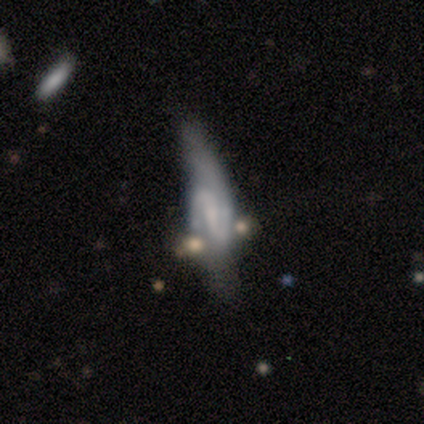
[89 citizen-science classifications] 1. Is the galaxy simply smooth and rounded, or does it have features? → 83% featured or disk, 10% smooth, 7% star or artifact.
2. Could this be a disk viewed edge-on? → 84% no, 16% yes.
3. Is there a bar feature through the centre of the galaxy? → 55% weak, 29% strong, 16% no.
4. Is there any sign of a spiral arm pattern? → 94% yes, 6% no.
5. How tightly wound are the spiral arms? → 45% medium, 29% loose, 26% tight.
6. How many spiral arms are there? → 93% 2, 5% 1, 2% can't tell, 0% 3, 0% 4, 0% more than 4.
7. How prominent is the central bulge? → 58% none, 39% small, 3% moderate, 0% dominant, 0% large.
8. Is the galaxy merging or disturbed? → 43% none, 25% minor disturbance, 18% major disturbance, 13% merger.